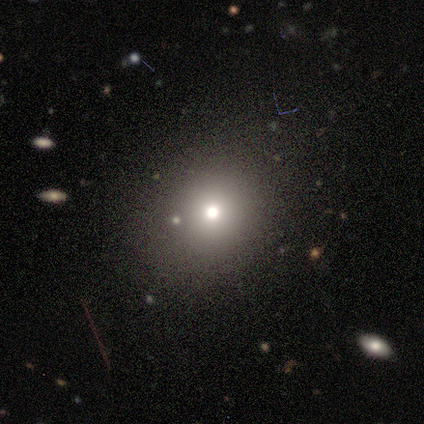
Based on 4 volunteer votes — A smooth galaxy with no disk features (100%) that is round (100%). Merging: none (100%).